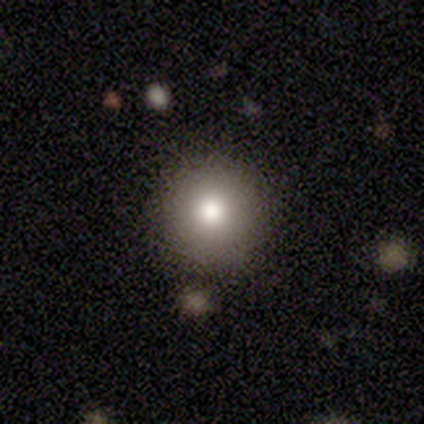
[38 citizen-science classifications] Q: Smooth or featured?
A: smooth (71%); runner-up: star or artifact (16%)
Q: How rounded?
A: round (100%)
Q: Merging?
A: none (84%); runner-up: merger (9%)